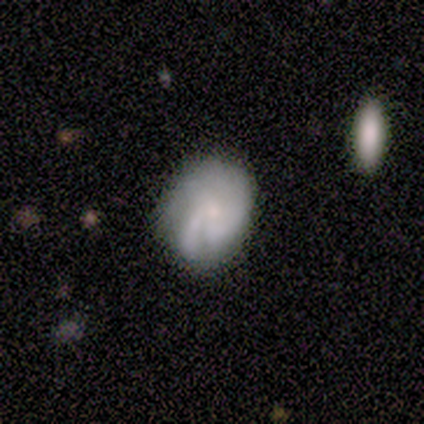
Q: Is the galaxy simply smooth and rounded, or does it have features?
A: smooth — 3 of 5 (60%).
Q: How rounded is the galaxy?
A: in between — 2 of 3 (67%).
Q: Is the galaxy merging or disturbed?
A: none — 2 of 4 (50%).